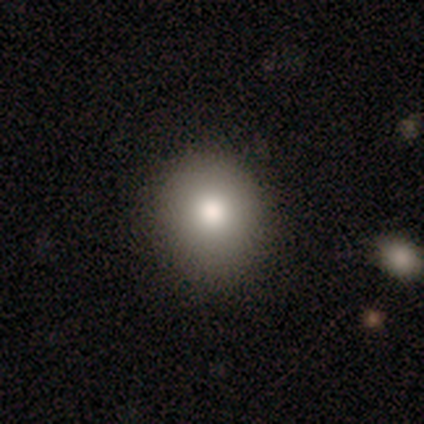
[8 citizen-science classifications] Smooth or featured? smooth (88%)
How rounded? round (71%)
Merging? none (86%)